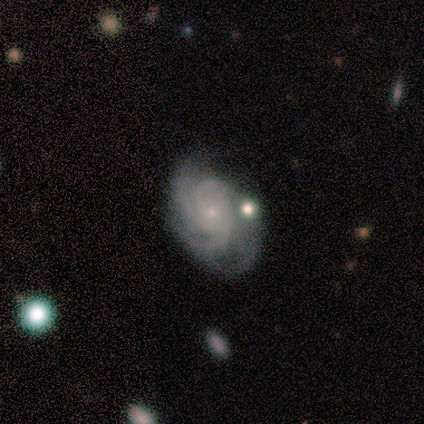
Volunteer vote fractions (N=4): featured or disk 100%, smooth 0%, star or artifact 0%. Down the decision tree: edge-on disk — no (100%); bar — strong (50%, tied with no); spiral arms — yes (100%); spiral arm count — 3 (50%, tied with 4); spiral winding — tight (100%); bulge size — small (75%); merging — none (100%).